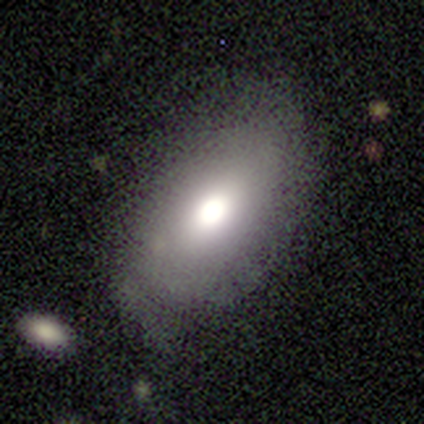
Morphology: type=smooth (60%); roundness=in between (67%); merging=none (50%).